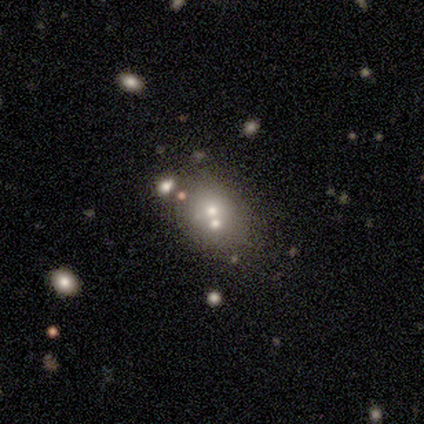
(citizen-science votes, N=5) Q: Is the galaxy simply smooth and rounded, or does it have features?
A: smooth — 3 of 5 (60%).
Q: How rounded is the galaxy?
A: in between — 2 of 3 (67%).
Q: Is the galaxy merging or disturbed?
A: merger — 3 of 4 (75%).